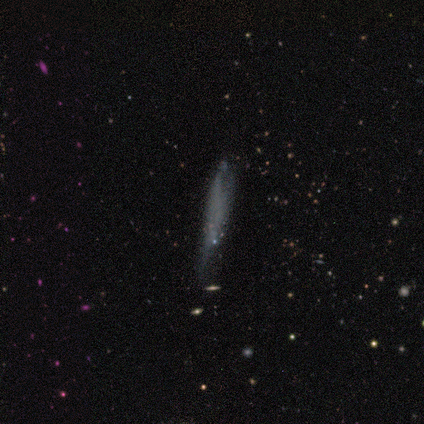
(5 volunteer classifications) Q: Smooth or featured?
A: smooth (40%); tied with: featured or disk (40%)
Q: How rounded?
A: cigar-shaped (100%)
Q: Merging?
A: none (50%); tied with: major disturbance (50%)